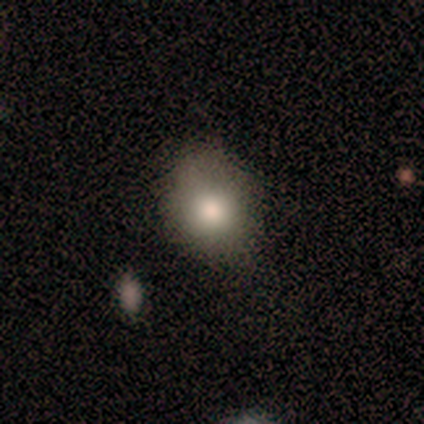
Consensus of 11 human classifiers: Smooth or featured: smooth — 91% (featured or disk — 9%)
How rounded: round — 80% (in between — 20%)
Merging: none — 73% (minor disturbance — 18%)